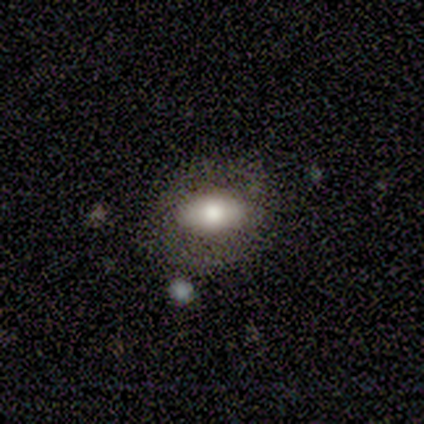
Overall: smooth (82%). How rounded: in between (100%). Merging: none (91%).